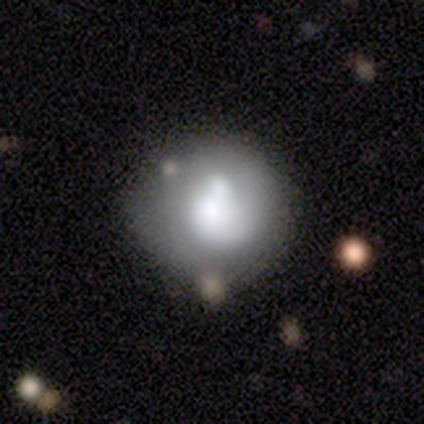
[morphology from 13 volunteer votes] This appears to be a smooth galaxy with no disk features (54%) that is round (71%). Merging: none (46%).